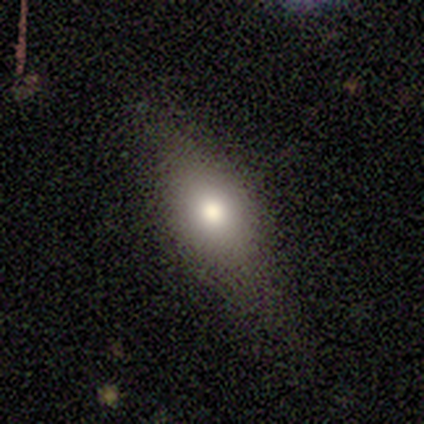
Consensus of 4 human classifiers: Smooth or featured? smooth (50%, tied with featured or disk)
How rounded? round (50%, tied with in between)
Merging? none (50%, tied with minor disturbance)